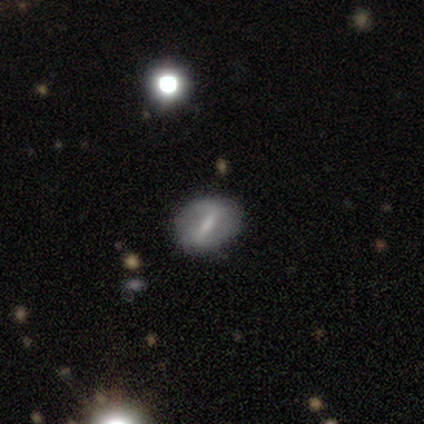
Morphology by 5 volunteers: Volunteers were most divided on "bar" (3-way tie): strong: 33%, weak: 33%, no: 33%; "spiral winding" (2-way tie): tight: 50%, loose: 50%, medium: 0%; "spiral arm count" (2-way tie): 2: 50%, can't tell: 50%, 1: 0%, 3: 0%, 4: 0%, more than 4: 0%; "bulge size" (3-way tie): moderate: 33%, small: 33%, none: 33%, dominant: 0%, large: 0%. More confident: edge-on disk — no (100%); merging — none (100%); spiral arms — yes (67%); smooth or featured — featured or disk (60%).